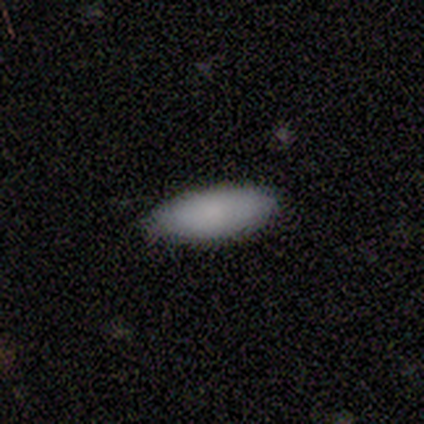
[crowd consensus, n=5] Smooth or featured? 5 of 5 (100%) said smooth. How rounded? 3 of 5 (60%) said in between. Merging? 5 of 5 (100%) said none.